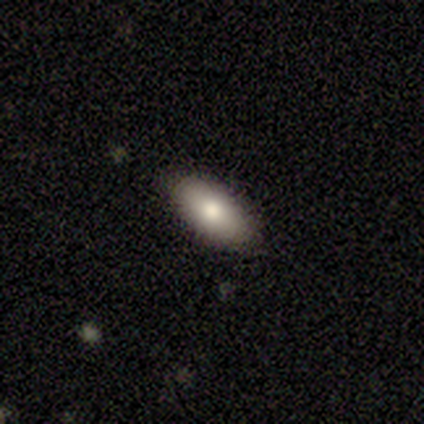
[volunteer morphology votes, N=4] Overall: smooth (75%). How rounded: in between (67%; round 33%). Merging: none (100%).